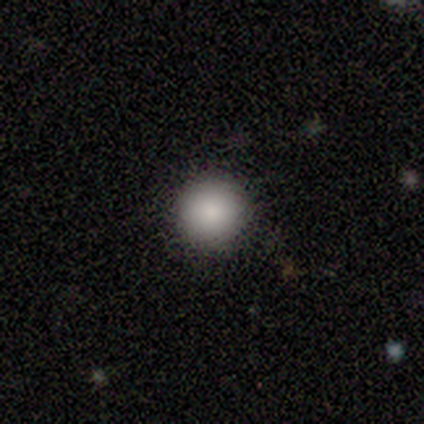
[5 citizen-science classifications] Consensus on every question: smooth or featured — smooth (100%); how rounded — round (100%); merging — none (100%).